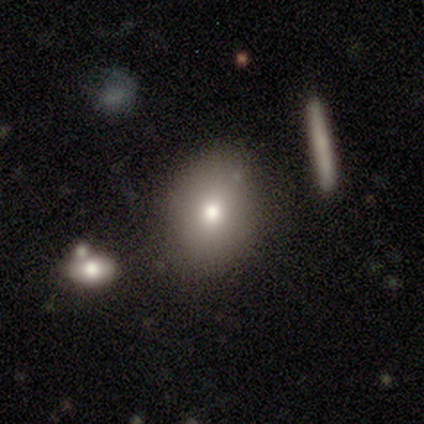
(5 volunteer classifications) A smooth galaxy with no disk features (80%) that is in between round and cigar-shaped (75%). Merging: none (80%).